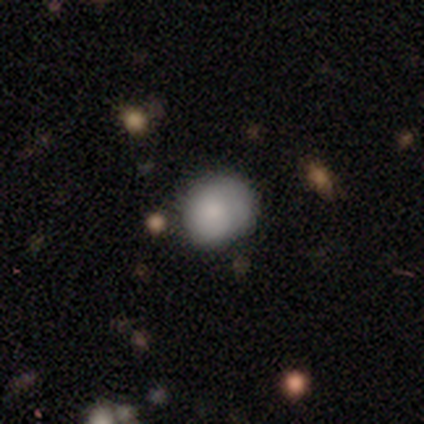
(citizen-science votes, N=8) smooth_or_featured: smooth (p=0.75) [alt: featured or disk p=0.12]
how_rounded: round (p=0.50) [tied with: in between p=0.50]
merging: none (p=0.71) [alt: minor disturbance p=0.14]